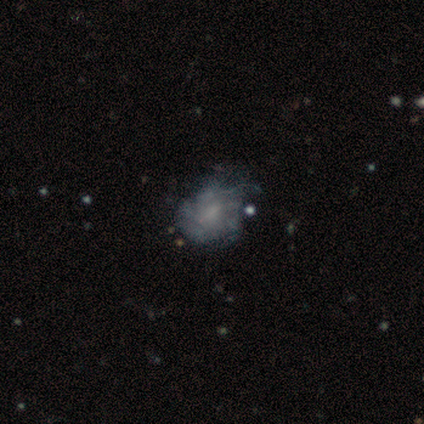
Morphology: type=featured or disk (60%); edge-on=no (100%); bar=no (100%); spiral arms=yes (67%); winding=medium (100%); arm count=can't tell (100%); bulge=moderate (33%, tied with small and none); merging=major disturbance (60%).